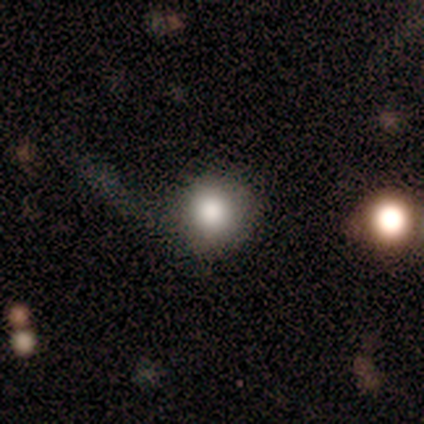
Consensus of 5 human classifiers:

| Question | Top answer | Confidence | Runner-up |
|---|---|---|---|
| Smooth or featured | smooth | 80% | star or artifact (20%) |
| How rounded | round | 100% | — |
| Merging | none | 75% | major disturbance (25%) |